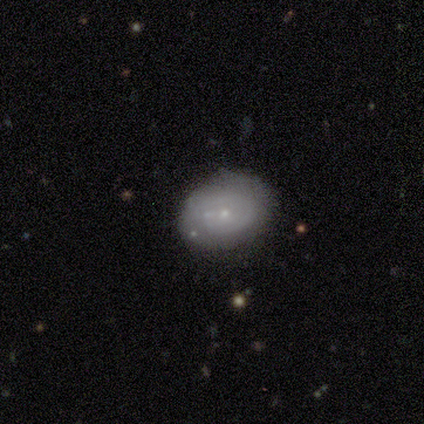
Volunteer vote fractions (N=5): Overall: smooth (60%; featured or disk 40%). How rounded: in between (67%; round 33%). Merging: none (100%).